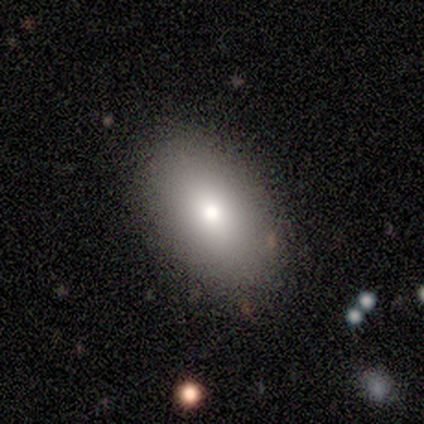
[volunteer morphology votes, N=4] Smooth or featured? smooth (100%)
How rounded? in between (75%)
Merging? none (75%)